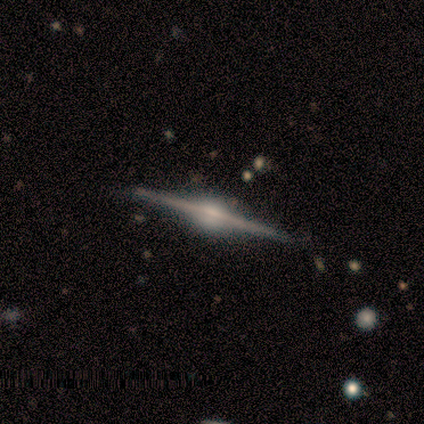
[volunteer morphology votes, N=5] smooth-or-featured: featured or disk: 100% | smooth: 0% | star or artifact: 0%
  disk-edge-on: yes: 100% | no: 0%
    edge-on-bulge: rounded: 100% | boxy: 0% | none: 0%
  merging: none: 100% | minor disturbance: 0% | major disturbance: 0% | merger: 0%